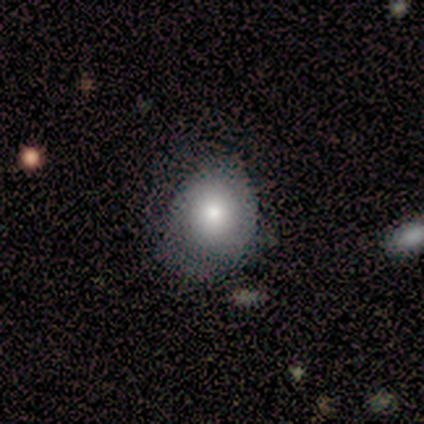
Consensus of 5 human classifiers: A smooth galaxy with no disk features (80%) that is round (75%). Merging: minor disturbance (60%).